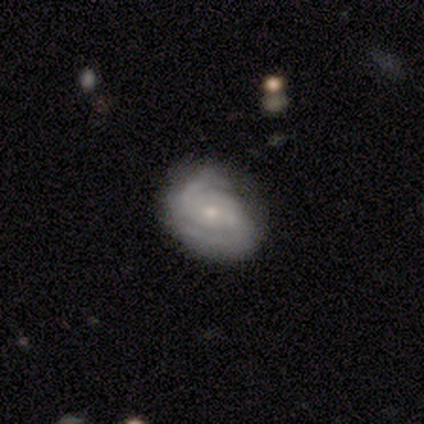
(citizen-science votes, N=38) Smooth or featured: featured or disk — 82% (smooth — 16%)
Edge-on disk: no — 94% (yes — 6%)
Bar: weak — 52% (no — 28%)
Spiral arms: yes — 97% (no — 3%)
Spiral winding: tight — 68% (medium — 18%)
Spiral arm count: 2 — 79% (can't tell — 14%)
Bulge size: small — 66% (large — 14%)
Merging: none — 59% (minor disturbance — 35%)